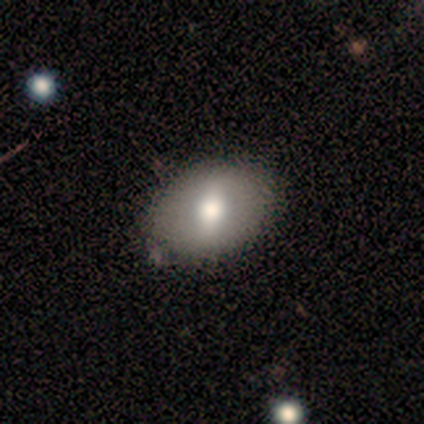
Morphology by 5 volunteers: A smooth galaxy with no disk features (60%) that is in between round and cigar-shaped (100%).

Vote fractions:
- Smooth or featured? smooth: 60% / featured or disk: 40% / star or artifact: 0%
- How rounded? in between: 100% / round: 0% / cigar-shaped: 0%
- Merging? none: 100% / minor disturbance: 0% / major disturbance: 0% / merger: 0%